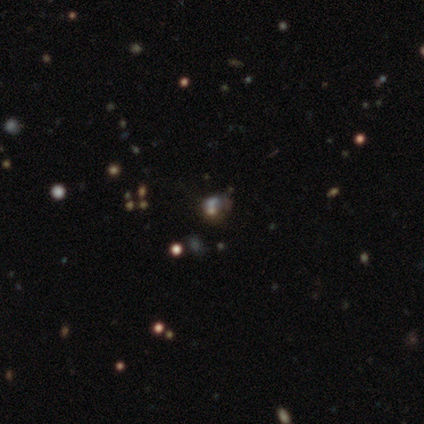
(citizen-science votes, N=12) smooth 58%, star or artifact 33%, featured or disk 8%. Down the decision tree: how rounded — round (57%); merging — none (50%).